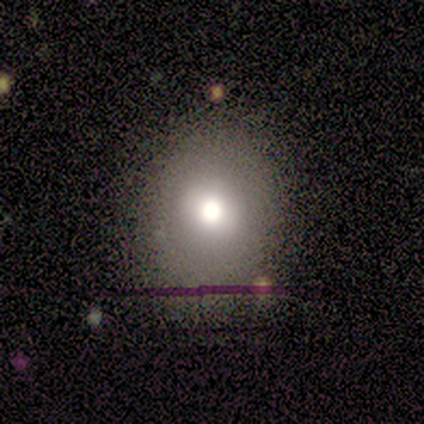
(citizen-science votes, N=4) Smooth or featured?
  - star or artifact: 50% *
  - smooth: 25%
  - featured or disk: 25%